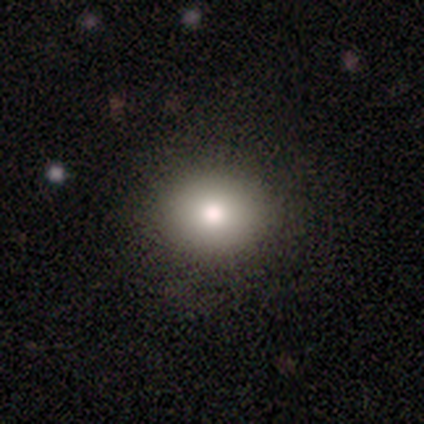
A smooth galaxy with no disk features (87%) that is round (74%).

Vote fractions:
- Smooth or featured? smooth: 87% / star or artifact: 8% / featured or disk: 5%
- How rounded? round: 74% / in between: 26% / cigar-shaped: 0%
- Merging? none: 94% / minor disturbance: 3% / major disturbance: 3% / merger: 0%